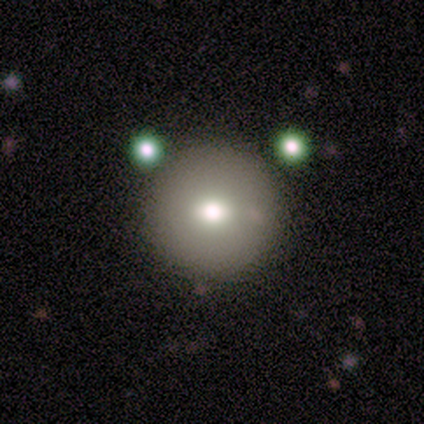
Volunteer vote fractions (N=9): A smooth galaxy with no disk features (78%) that is round (100%).

Vote fractions:
- Smooth or featured? smooth: 78% / featured or disk: 22% / star or artifact: 0%
- How rounded? round: 100% / in between: 0% / cigar-shaped: 0%
- Merging? none: 100% / minor disturbance: 0% / major disturbance: 0% / merger: 0%